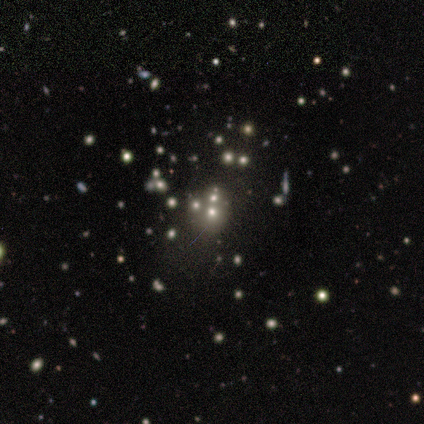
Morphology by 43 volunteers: smooth_or_featured: smooth (p=0.40) [tied with: star or artifact p=0.40]
how_rounded: round (p=0.88) [alt: in between p=0.12]
merging: none (p=0.65) [alt: merger p=0.27]